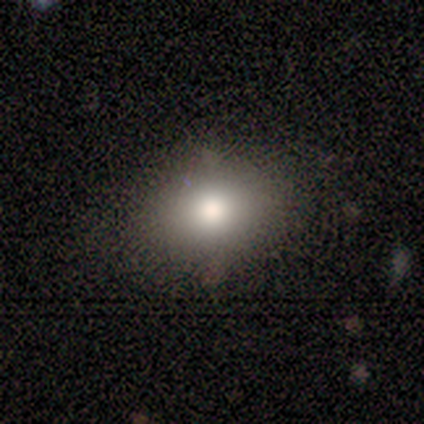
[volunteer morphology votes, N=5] This appears to be a smooth galaxy with no disk features (100%) that is round (60%). Merging: none (60%).